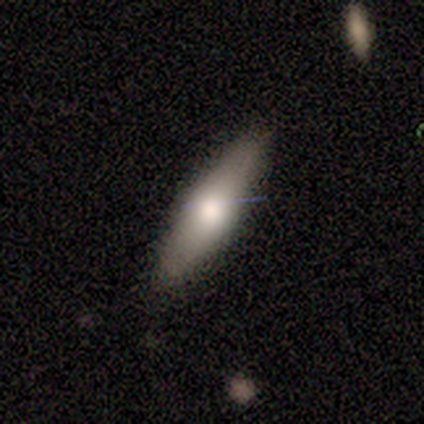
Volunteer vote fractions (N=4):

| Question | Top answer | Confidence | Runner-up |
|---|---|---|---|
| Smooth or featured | smooth | 75% | featured or disk (25%) |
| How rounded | cigar-shaped | 100% | — |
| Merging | none | 75% | minor disturbance (25%) |